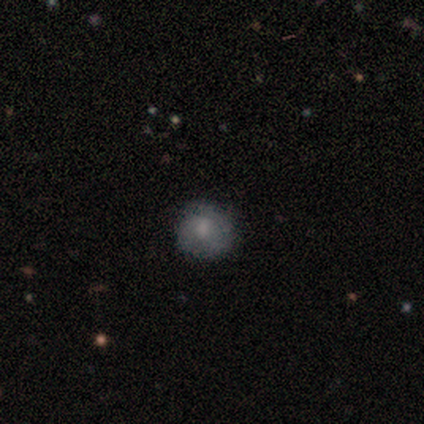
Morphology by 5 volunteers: This appears to be a smooth galaxy with no disk features (80%) that is round (100%). Merging: minor disturbance (60%).